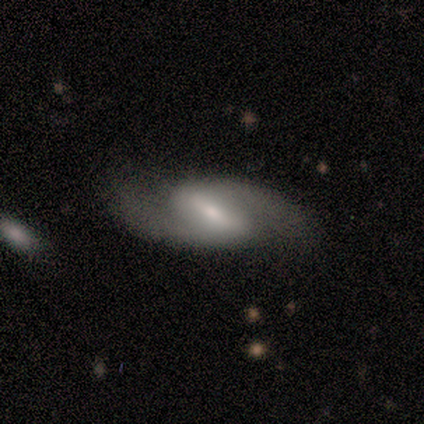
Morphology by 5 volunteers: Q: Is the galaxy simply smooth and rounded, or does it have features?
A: featured or disk — 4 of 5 (80%).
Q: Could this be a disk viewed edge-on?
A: no — 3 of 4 (75%).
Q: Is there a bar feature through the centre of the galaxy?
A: weak — 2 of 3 (67%).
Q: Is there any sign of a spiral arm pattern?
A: yes — 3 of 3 (100%).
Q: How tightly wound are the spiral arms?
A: loose — 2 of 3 (67%).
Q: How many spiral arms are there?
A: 2 — 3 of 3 (100%).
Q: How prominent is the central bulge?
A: small — 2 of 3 (67%).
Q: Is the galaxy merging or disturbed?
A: none — 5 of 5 (100%).